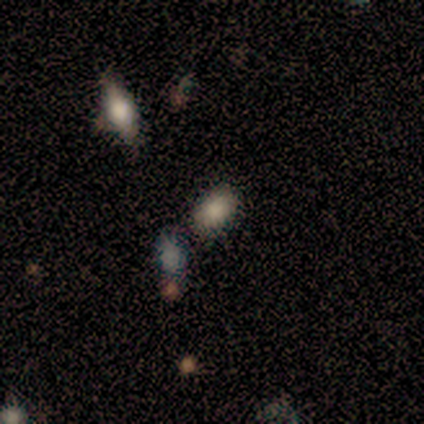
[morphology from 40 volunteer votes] This is likely a smooth galaxy (65%). How rounded: clearly in between (96%). Merging: likely none (77%).